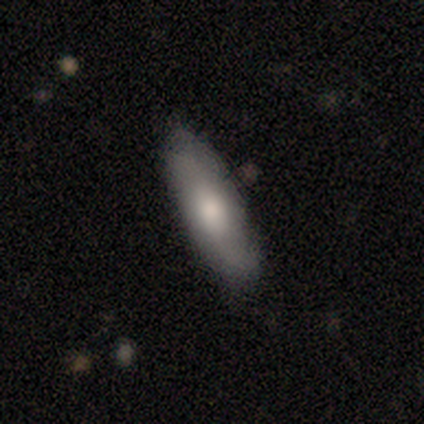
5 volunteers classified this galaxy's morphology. smooth-or-featured: featured or disk: 60% | smooth: 40% | star or artifact: 0%
  disk-edge-on: yes: 67% | no: 33%
    edge-on-bulge: rounded: 100% | boxy: 0% | none: 0%
  merging: none: 80% | minor disturbance: 20% | major disturbance: 0% | merger: 0%